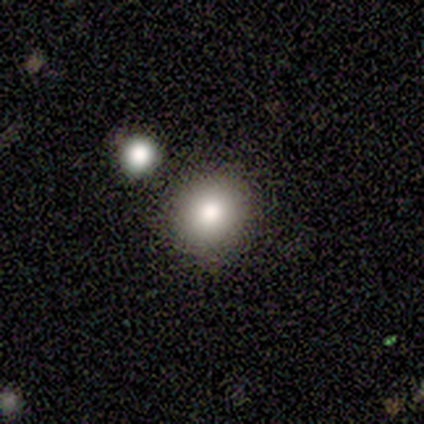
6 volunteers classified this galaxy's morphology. smooth_or_featured: smooth (p=0.83) [alt: star or artifact p=0.17]
how_rounded: round (p=1.00)
merging: none (p=1.00)